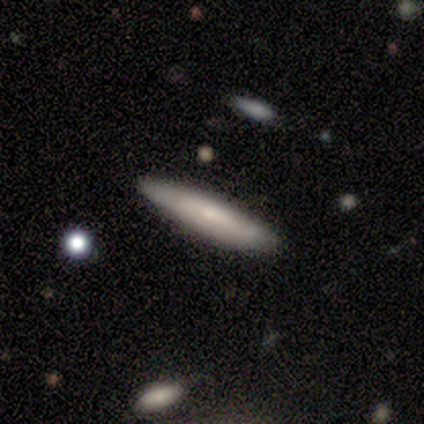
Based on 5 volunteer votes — Smooth or featured? 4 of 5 (80%) said smooth. How rounded? 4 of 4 (100%) said cigar-shaped. Merging? 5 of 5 (100%) said none.